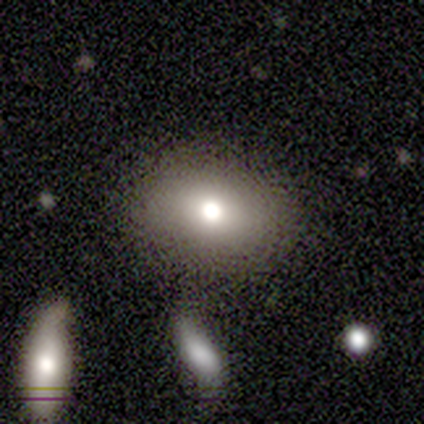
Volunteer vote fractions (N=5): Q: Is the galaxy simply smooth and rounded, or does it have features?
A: smooth — 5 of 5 (100%).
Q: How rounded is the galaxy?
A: in between — 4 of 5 (80%).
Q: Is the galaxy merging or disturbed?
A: none — 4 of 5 (80%).